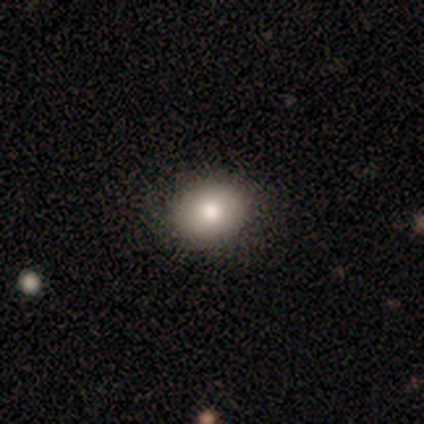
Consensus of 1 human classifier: A smooth galaxy with no disk features (100%) that is in between round and cigar-shaped (100%). Merging: none (100%).